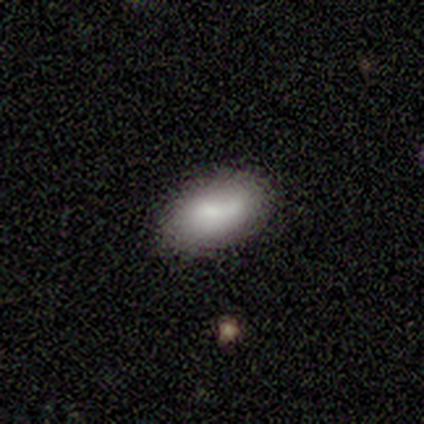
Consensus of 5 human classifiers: Morphology: type=smooth (80%); roundness=in between (75%); merging=none (80%).